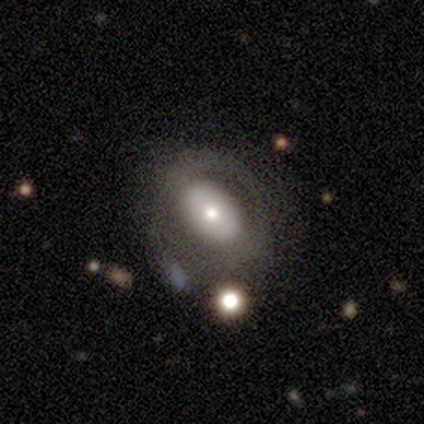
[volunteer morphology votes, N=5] A featured or disk galaxy (60%) with no bar (100%), no spiral arms (100%) and a moderate central bulge (100%). Merging: none (80%).